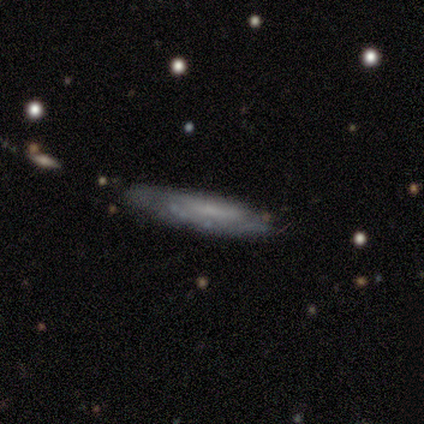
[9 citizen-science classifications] Smooth or featured?
  - featured or disk: 89% *
  - smooth: 11%
  - star or artifact: 0%
Edge-on disk?
  - yes: 50% * (tied)
  - no: 50% * (tied)
Edge-on bulge?
  - none: 100% *
  - boxy: 0%
  - rounded: 0%
Merging?
  - none: 56% *
  - minor disturbance: 44%
  - major disturbance: 0%
  - merger: 0%